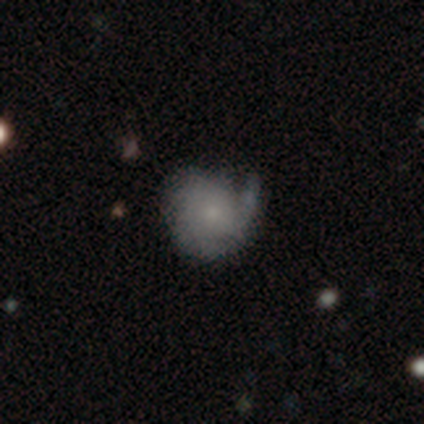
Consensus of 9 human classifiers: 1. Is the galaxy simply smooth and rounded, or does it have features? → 67% featured or disk, 33% smooth, 0% star or artifact.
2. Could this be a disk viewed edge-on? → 100% no, 0% yes.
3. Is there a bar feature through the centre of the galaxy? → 67% no, 33% weak, 0% strong.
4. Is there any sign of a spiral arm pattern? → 100% yes, 0% no.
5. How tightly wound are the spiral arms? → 50% tight, 33% loose, 17% medium.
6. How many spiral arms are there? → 50% 1, 33% 3, 17% can't tell, 0% 2, 0% 4, 0% more than 4.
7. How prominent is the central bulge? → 83% small, 17% none, 0% dominant, 0% large, 0% moderate.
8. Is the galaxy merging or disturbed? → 78% none, 11% minor disturbance, 11% major disturbance, 0% merger.